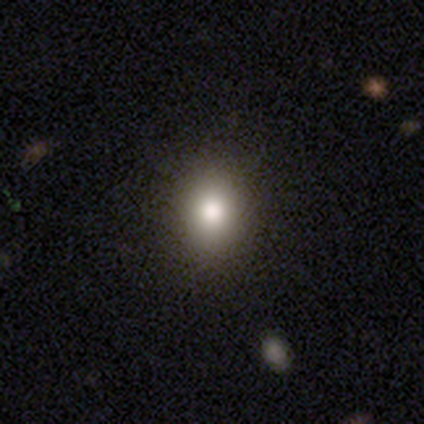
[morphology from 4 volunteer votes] Q: Smooth or featured?
A: smooth (75%); runner-up: star or artifact (25%)
Q: How rounded?
A: round (67%); runner-up: in between (33%)
Q: Merging?
A: none (67%); runner-up: major disturbance (33%)